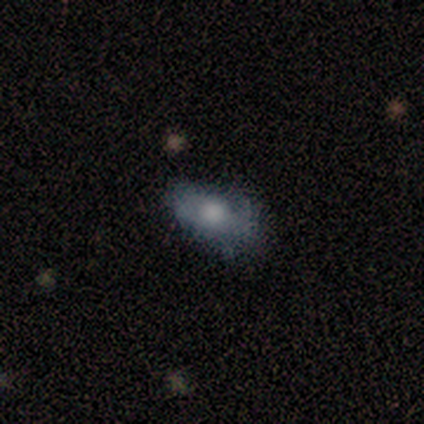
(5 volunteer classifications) Smooth or featured: featured or disk — 60% (smooth — 40%)
Edge-on disk: no — 67% (yes — 33%)
Bar: no — 100%
Spiral arms: yes — 50% (tied with no — 50%)
Spiral winding: loose — 100%
Spiral arm count: 1 — 100%
Bulge size: large — 50% (tied with none — 50%)
Merging: minor disturbance — 40% (tied with major disturbance — 40%)